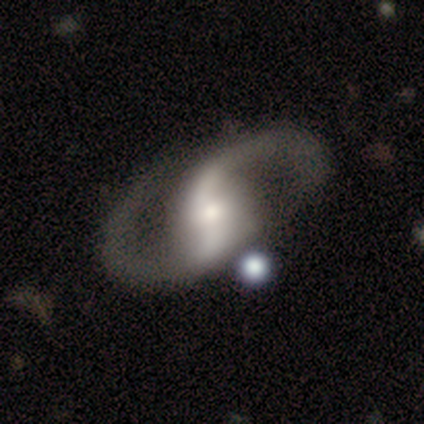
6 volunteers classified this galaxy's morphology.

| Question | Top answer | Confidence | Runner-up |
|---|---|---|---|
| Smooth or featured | featured or disk | 100% | — |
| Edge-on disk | no | 100% | — |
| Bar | strong | 33% | tied: weak (33%), no (33%) |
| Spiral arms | yes | 100% | — |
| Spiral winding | medium | 67% | loose (33%) |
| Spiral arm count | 2 | 100% | — |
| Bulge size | moderate | 50% | large (17%) |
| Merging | none | 67% | minor disturbance (17%) |